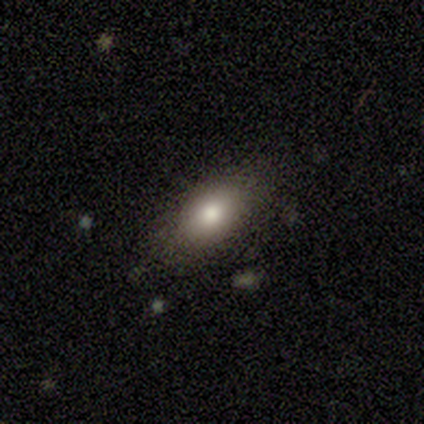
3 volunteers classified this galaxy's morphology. This appears to be a smooth galaxy with no disk features (100%) that is in between round and cigar-shaped (67%). Merging: minor disturbance (67%).